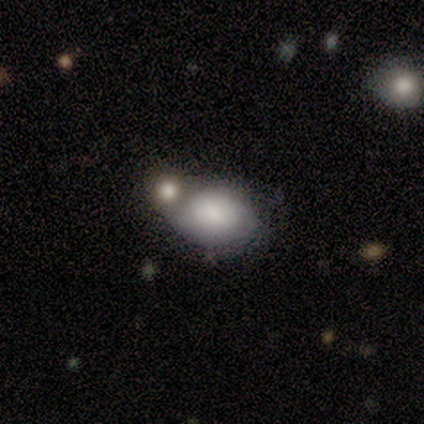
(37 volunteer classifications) smooth_or_featured: smooth (p=0.59) [alt: featured or disk p=0.22]
how_rounded: in between (p=0.86) [alt: round p=0.14]
merging: merger (p=0.50) [alt: none p=0.27]